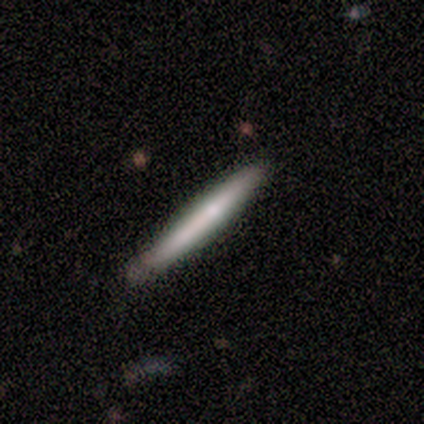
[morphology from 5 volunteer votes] Smooth or featured? smooth (80%)
How rounded? cigar-shaped (100%)
Merging? none (60%)